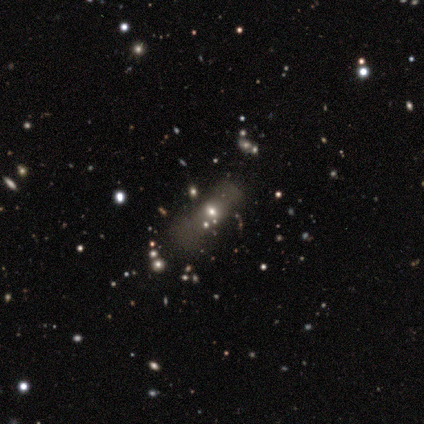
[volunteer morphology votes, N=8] This appears to be a smooth galaxy with no disk features (50%, tied with star or artifact) that is cigar-shaped (75%). Merging: none (75%).